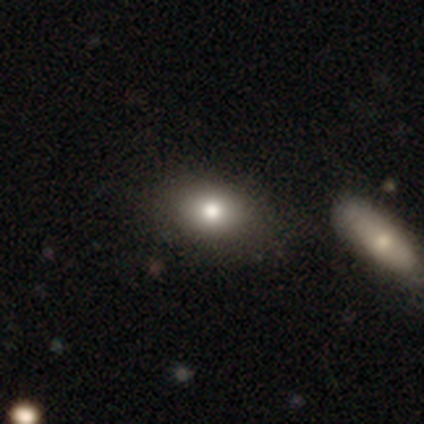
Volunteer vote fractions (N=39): Volunteers were most divided on "how rounded": in between: 71%, round: 29%, cigar-shaped: 0%. More confident: smooth or featured — smooth (87%); merging — none (53%).